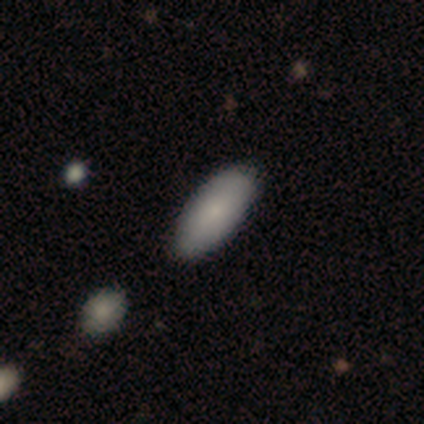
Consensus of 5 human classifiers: Smooth or featured? smooth (80%)
How rounded? in between (100%)
Merging? none (60%)